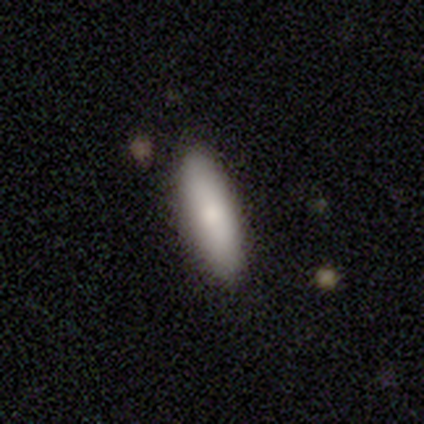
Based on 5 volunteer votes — A smooth galaxy with no disk features (60%) that is cigar-shaped (67%).

Vote fractions:
- Smooth or featured? smooth: 60% / featured or disk: 40% / star or artifact: 0%
- How rounded? cigar-shaped: 67% / in between: 33% / round: 0%
- Merging? none: 60% / minor disturbance: 20% / merger: 20% / major disturbance: 0%